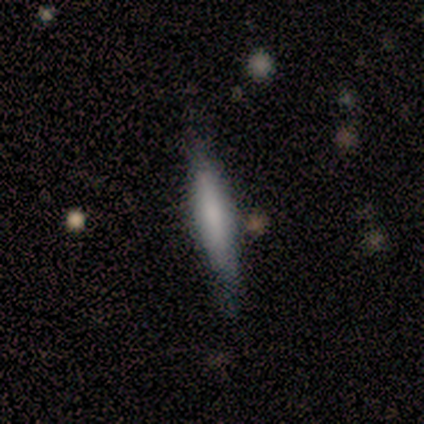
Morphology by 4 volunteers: Smooth or featured? 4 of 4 (100%) said smooth. How rounded? 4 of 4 (100%) said cigar-shaped. Merging? 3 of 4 (75%) said none.